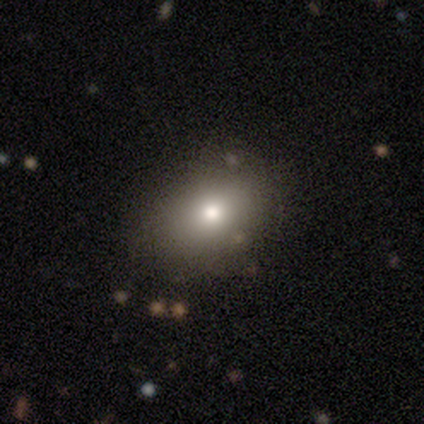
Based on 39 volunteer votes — smooth 90%, featured or disk 5%, star or artifact 5%. Down the decision tree: how rounded — in between (63%); merging — none (78%).